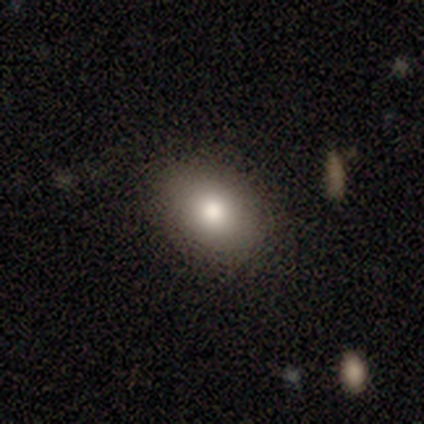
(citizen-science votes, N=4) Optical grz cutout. It shows a smooth galaxy with no disk features (100%) that is round (50%, tied with in between). Merging: none (100%).